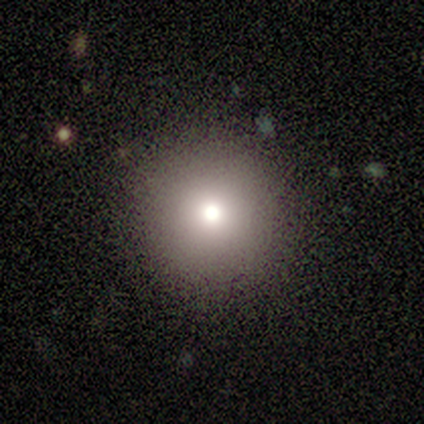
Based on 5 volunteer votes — smooth 60%, featured or disk 20%, star or artifact 20%. Down the decision tree: how rounded — round (100%); merging — none (100%).